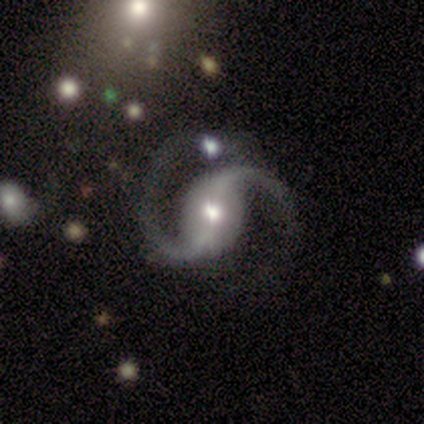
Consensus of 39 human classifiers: featured or disk 87%, star or artifact 13%, smooth 0%. Down the decision tree: edge-on disk — no (100%); bar — weak (50%); spiral arms — yes (97%); spiral arm count — 2 (94%); spiral winding — medium (55%); bulge size — moderate (74%); merging — none (74%).